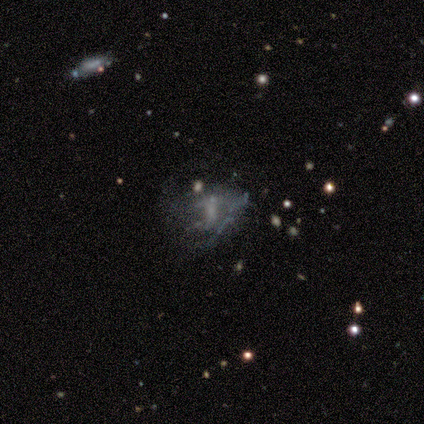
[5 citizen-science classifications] Smooth or featured: featured or disk — 40% (tied with star or artifact — 40%)
Edge-on disk: no — 100%
Bar: weak — 50% (tied with no — 50%)
Spiral arms: yes — 50% (tied with no — 50%)
Spiral winding: medium — 100%
Spiral arm count: 1 — 100%
Bulge size: small — 50% (tied with none — 50%)
Merging: none — 33% (tied with major disturbance — 33%; merger — 33%)